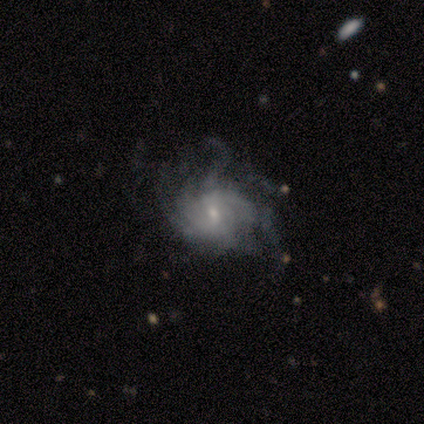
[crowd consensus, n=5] smooth-or-featured: featured or disk: 100% | smooth: 0% | star or artifact: 0%
  disk-edge-on: no: 100% | yes: 0%
    bar: weak: 60% | no: 40% | strong: 0%
    has-spiral-arms: yes: 100% | no: 0%
      spiral-winding: medium: 60% | tight: 20% | loose: 20%
      spiral-arm-count: more than 4: 40% (tied) | can't tell: 40% (tied) | 2: 20% | 1: 0% | 3: 0% | 4: 0%
    bulge-size: small: 60% | moderate: 40% | dominant: 0% | large: 0% | none: 0%
  merging: none: 40% (tied) | major disturbance: 40% (tied) | minor disturbance: 20% | merger: 0%